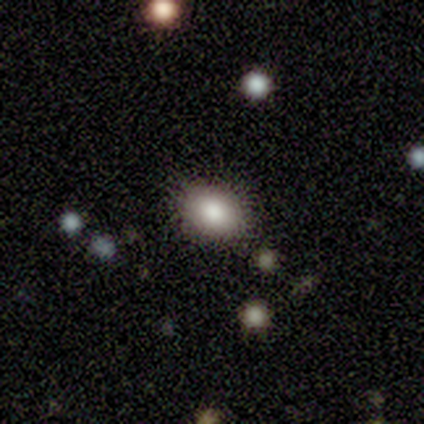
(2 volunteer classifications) Overall: smooth (50%, tied with featured or disk). How rounded: round (100%). Merging: none (100%).